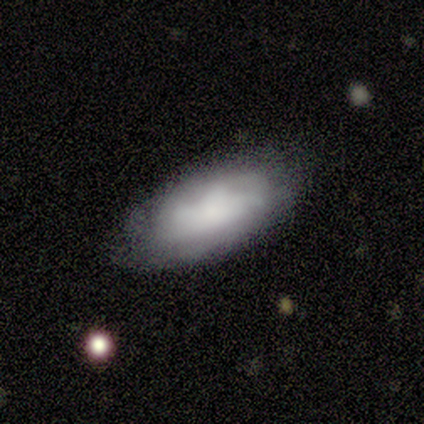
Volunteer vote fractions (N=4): Q: Smooth or featured?
A: smooth (50%); tied with: featured or disk (50%)
Q: How rounded?
A: in between (100%)
Q: Merging?
A: none (75%); runner-up: major disturbance (25%)